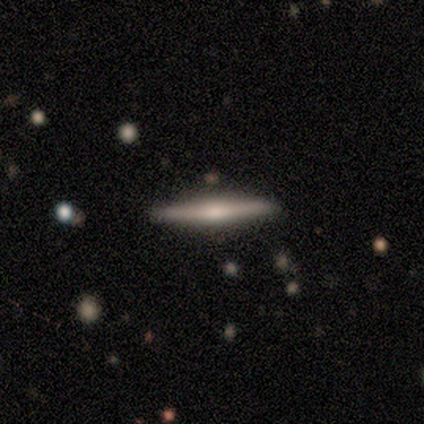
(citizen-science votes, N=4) Smooth or featured? 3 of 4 (75%) said featured or disk. Edge-on disk? 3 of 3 (100%) said yes. Edge-on bulge? 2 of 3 (67%) said rounded. Merging? 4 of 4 (100%) said none.